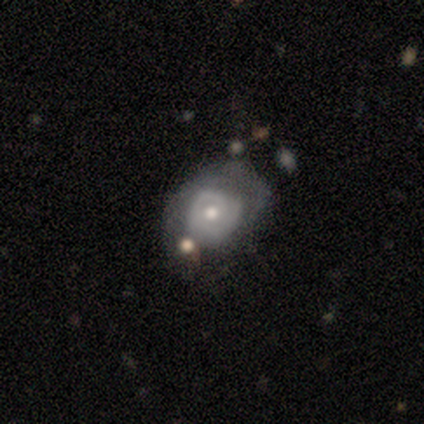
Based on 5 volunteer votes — Smooth or featured? 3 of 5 (60%) said smooth. How rounded? 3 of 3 (100%) said in between. Merging? 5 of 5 (100%) said none.